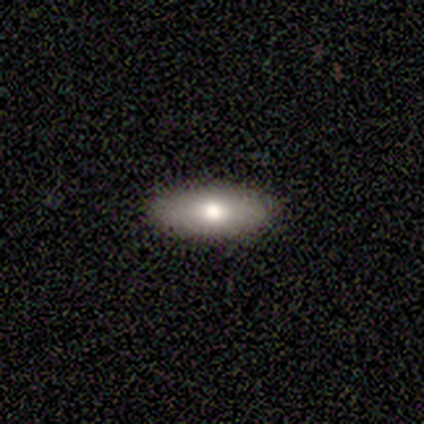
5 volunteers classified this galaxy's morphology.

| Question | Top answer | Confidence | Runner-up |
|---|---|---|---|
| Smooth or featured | smooth | 100% | — |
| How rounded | in between | 80% | cigar-shaped (20%) |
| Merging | none | 80% | minor disturbance (20%) |